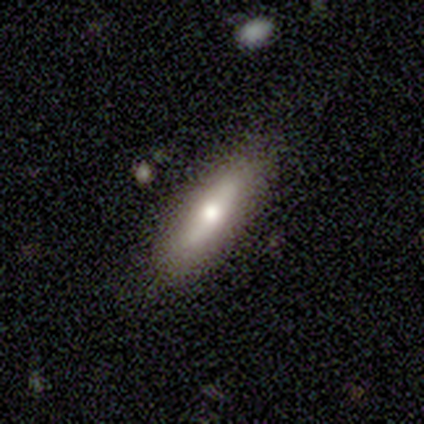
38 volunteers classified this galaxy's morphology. Smooth or featured? smooth (42%, tied with featured or disk)
How rounded? cigar-shaped (56%)
Merging? none (81%)